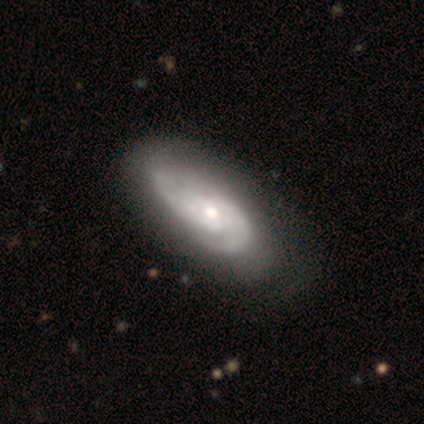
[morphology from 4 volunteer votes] Smooth or featured?
  - featured or disk: 100% *
  - smooth: 0%
  - star or artifact: 0%
Edge-on disk?
  - no: 100% *
  - yes: 0%
Bar?
  - no: 100% *
  - strong: 0%
  - weak: 0%
Spiral arms?
  - yes: 75% *
  - no: 25%
Spiral winding?
  - tight: 67% *
  - medium: 33%
  - loose: 0%
Spiral arm count?
  - 2: 67% *
  - can't tell: 33%
  - 1: 0%
  - 3: 0%
  - 4: 0%
  - more than 4: 0%
Bulge size?
  - moderate: 75% *
  - small: 25%
  - dominant: 0%
  - large: 0%
  - none: 0%
Merging?
  - minor disturbance: 50% *
  - none: 25%
  - major disturbance: 25%
  - merger: 0%